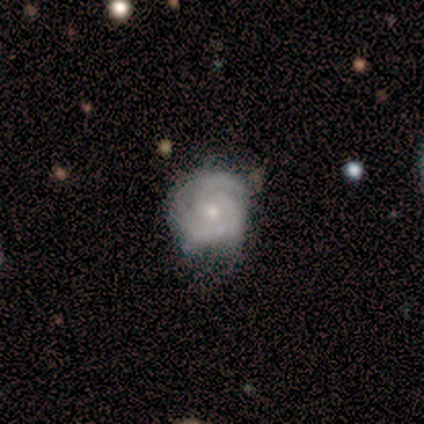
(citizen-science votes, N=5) Overall: featured or disk (100%). Edge-on disk: no (100%). Bar: no (80%). Spiral arms: yes (100%). Spiral arm count: 2 (40%, tied with 4). Spiral winding: tight (100%). Bulge size: small (80%). Merging: none (60%; minor disturbance 40%).